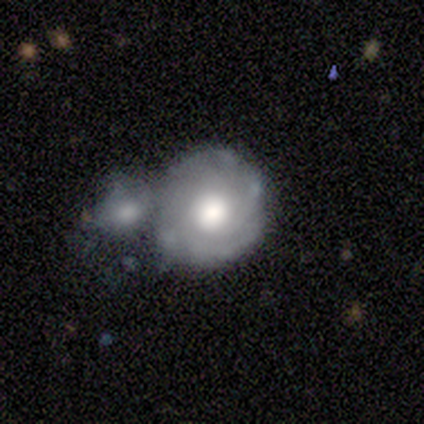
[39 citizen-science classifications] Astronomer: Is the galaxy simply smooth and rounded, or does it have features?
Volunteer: featured or disk — 64%.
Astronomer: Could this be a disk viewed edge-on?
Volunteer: no — 100%.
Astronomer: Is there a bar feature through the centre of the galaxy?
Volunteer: no — 92%.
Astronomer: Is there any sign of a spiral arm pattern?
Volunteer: yes — 88%.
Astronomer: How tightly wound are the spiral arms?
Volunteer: tight — 73%.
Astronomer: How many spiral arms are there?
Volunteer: can't tell — 55%.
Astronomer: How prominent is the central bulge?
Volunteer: moderate — 52% (runner-up: large, 44%).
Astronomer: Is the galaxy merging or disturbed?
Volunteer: merger — 58%.